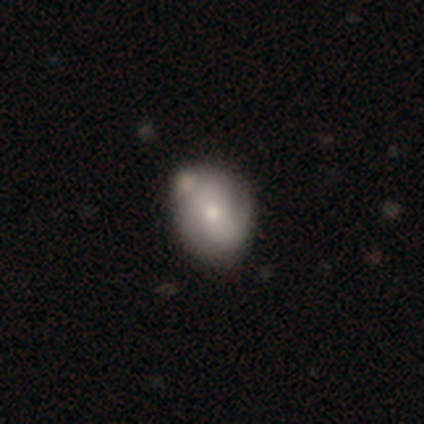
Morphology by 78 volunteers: A smooth galaxy with no disk features (54%) that is round (55%).

Vote fractions:
- Smooth or featured? smooth: 54% / featured or disk: 41% / star or artifact: 5%
- How rounded? round: 55% / in between: 45% / cigar-shaped: 0%
- Merging? none: 32% / merger: 19% / minor disturbance: 9% / major disturbance: 1%